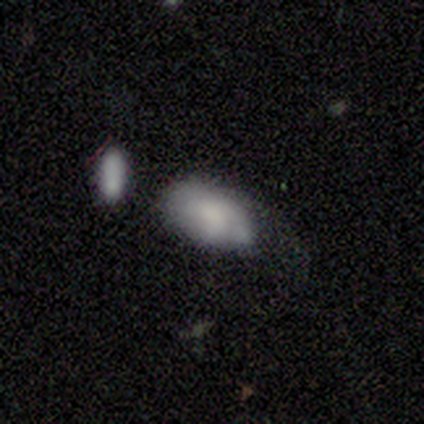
This is likely a smooth galaxy (60%). How rounded: clearly in between (100%). Merging: likely minor disturbance (60%).